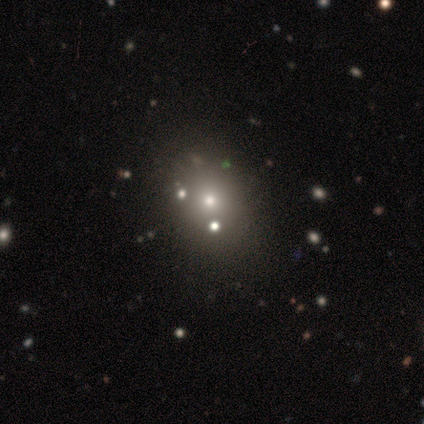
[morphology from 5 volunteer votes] This appears to be a featured or disk galaxy (40%, tied with star or artifact) viewed edge-on (50%, tied with no) with a rounded central bulge (100%). Merging: none (67%).